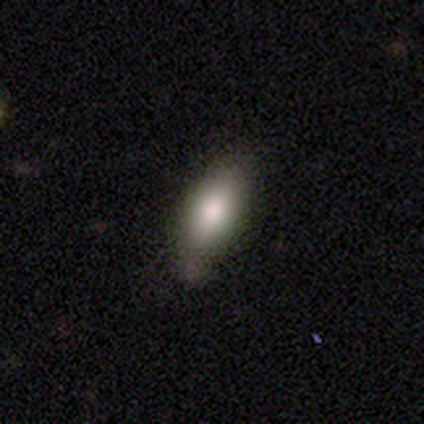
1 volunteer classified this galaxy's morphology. A smooth galaxy with no disk features (100%) that is cigar-shaped (100%).

Vote fractions:
- Smooth or featured? smooth: 100% / featured or disk: 0% / star or artifact: 0%
- How rounded? cigar-shaped: 100% / round: 0% / in between: 0%
- Merging? none: 100% / minor disturbance: 0% / major disturbance: 0% / merger: 0%